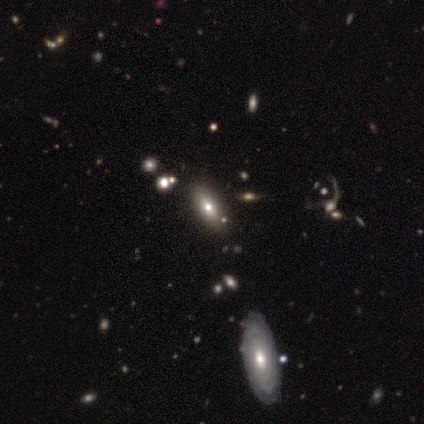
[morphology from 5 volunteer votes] Smooth or featured? 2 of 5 (40%, tied with featured or disk) said smooth. How rounded? 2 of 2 (100%) said in between. Merging? 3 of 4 (75%) said none.